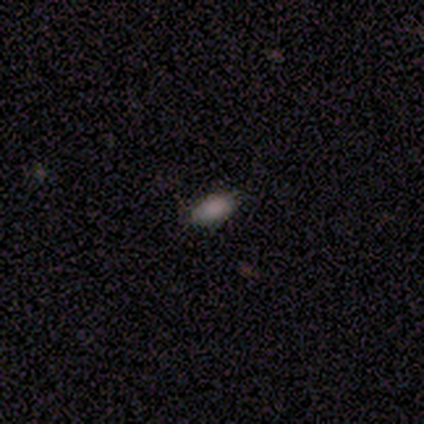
Morphology: type=smooth (79%); roundness=in between (100%); merging=none (91%).